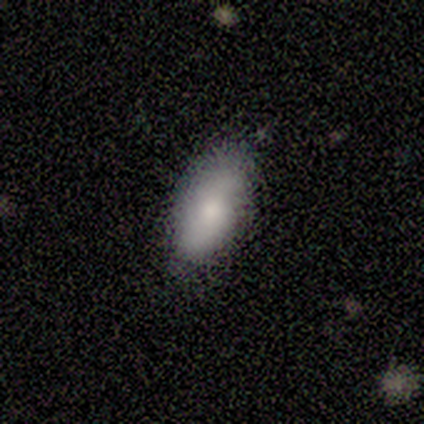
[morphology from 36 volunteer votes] Volunteers were most divided on "smooth or featured": smooth: 75%, featured or disk: 14%, star or artifact: 11%. More confident: how rounded — in between (93%); merging — none (81%).